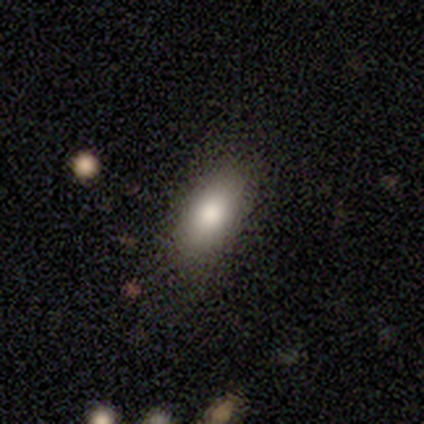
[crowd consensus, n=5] This is clearly a smooth galaxy (100%). How rounded: clearly in between (100%). Merging: likely none (60%).